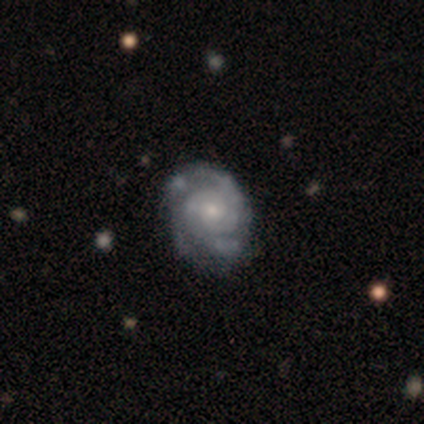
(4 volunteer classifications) Smooth or featured? featured or disk (100%)
Edge-on disk? no (100%)
Bar? no (100%)
Spiral arms? yes (100%)
Spiral winding? tight (100%)
Spiral arm count? 2 (75%)
Bulge size? small (75%)
Merging? minor disturbance (50%)